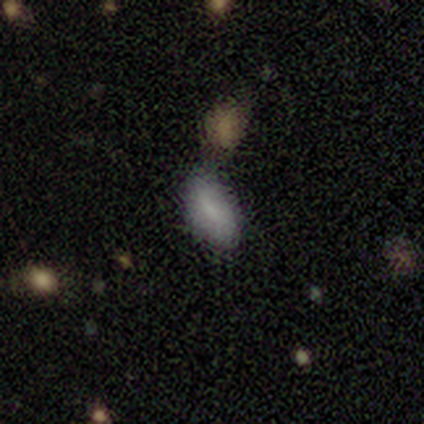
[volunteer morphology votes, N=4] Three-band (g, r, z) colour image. It shows a smooth galaxy with no disk features (75%) that is in between round and cigar-shaped (100%). Merging: minor disturbance (75%).